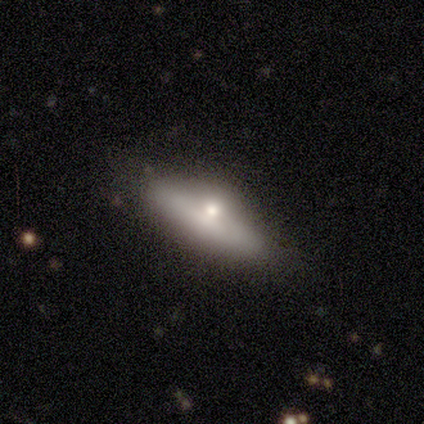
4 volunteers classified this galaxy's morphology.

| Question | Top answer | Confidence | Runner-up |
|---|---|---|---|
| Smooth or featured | smooth | 75% | star or artifact (25%) |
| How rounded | in between | 67% | cigar-shaped (33%) |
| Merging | none | 67% | minor disturbance (33%) |